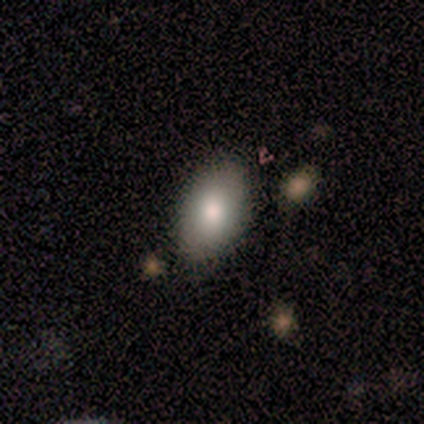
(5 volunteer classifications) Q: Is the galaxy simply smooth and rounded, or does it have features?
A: smooth — 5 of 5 (100%).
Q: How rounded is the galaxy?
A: in between — 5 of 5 (100%).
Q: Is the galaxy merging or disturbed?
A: none — 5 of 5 (100%).